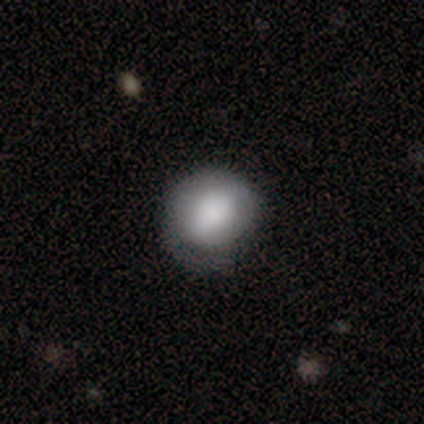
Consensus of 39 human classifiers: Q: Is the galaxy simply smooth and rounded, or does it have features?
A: smooth — 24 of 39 (62%).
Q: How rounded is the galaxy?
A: round — 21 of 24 (88%).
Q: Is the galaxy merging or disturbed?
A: none — 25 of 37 (68%).